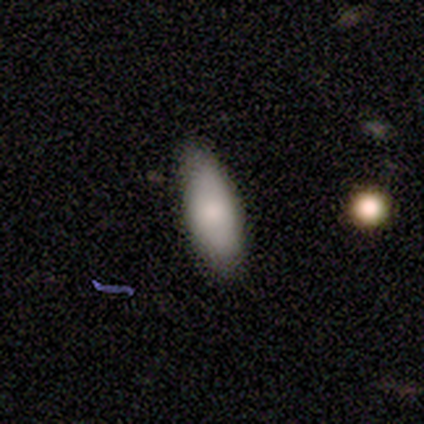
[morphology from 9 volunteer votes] smooth 100%, featured or disk 0%, star or artifact 0%. Down the decision tree: how rounded — in between (89%); merging — none (100%).